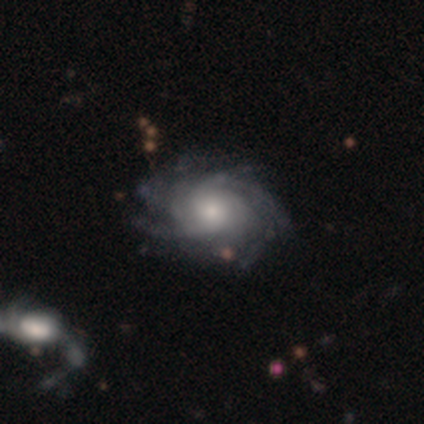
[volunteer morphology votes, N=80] featured or disk 94%, smooth 4%, star or artifact 2%. Down the decision tree: edge-on disk — no (97%); bar — no (79%); spiral arms — yes (99%); spiral arm count — more than 4 (39%); spiral winding — tight (61%); bulge size — moderate (55%); merging — none (33%).